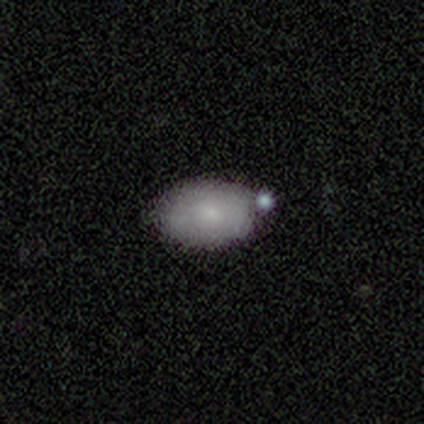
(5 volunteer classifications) Volunteers were most divided on "merging" (2-way tie): none: 40%, minor disturbance: 40%, merger: 20%, major disturbance: 0%. More confident: smooth or featured — smooth (100%); how rounded — in between (80%).